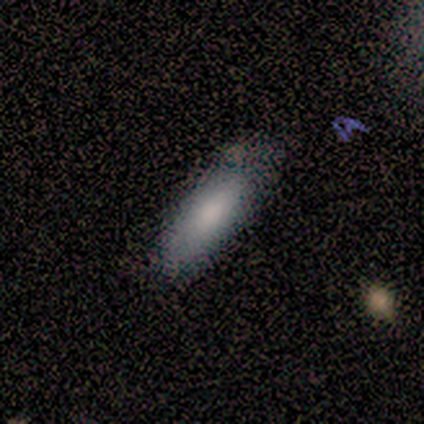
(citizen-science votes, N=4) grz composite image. It shows a smooth galaxy with no disk features (75%) that is in between round and cigar-shaped (67%). Merging: none (50%, tied with minor disturbance).